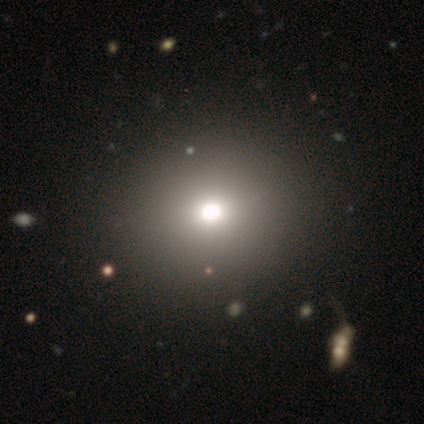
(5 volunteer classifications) This appears to be a smooth galaxy with no disk features (60%) that is round (100%). Merging: none (100%).